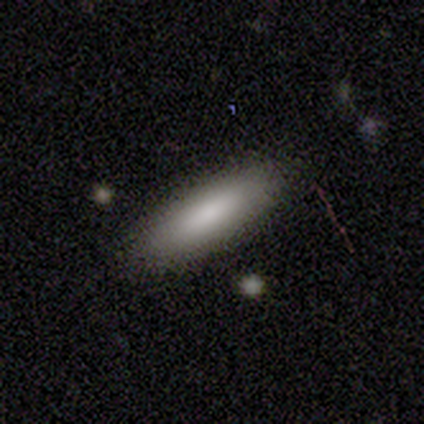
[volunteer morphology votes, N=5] smooth 80%, featured or disk 20%, star or artifact 0%. Down the decision tree: how rounded — cigar-shaped (75%); merging — none (100%).